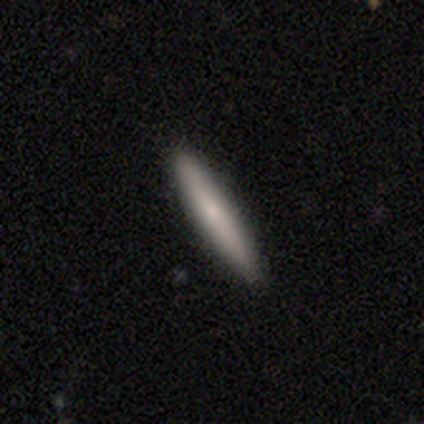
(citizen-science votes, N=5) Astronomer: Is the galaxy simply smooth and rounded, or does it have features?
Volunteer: smooth — 60% (runner-up: featured or disk, 40%).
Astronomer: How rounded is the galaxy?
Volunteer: cigar-shaped — 100%.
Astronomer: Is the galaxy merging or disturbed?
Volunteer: none — 100%.